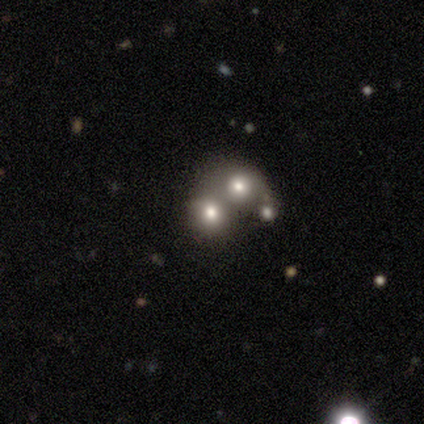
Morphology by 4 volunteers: type=smooth (50%); roundness=round (50%, tied with in between); merging=merger (67%).